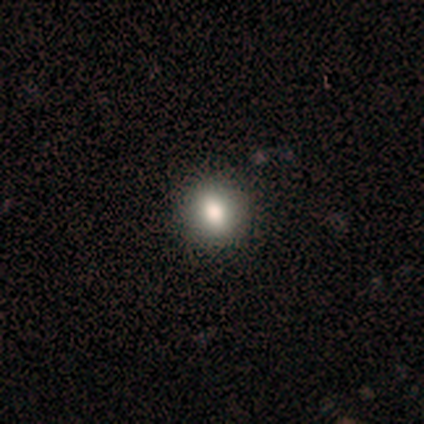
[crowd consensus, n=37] Smooth or featured? 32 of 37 (86%) said smooth. How rounded? 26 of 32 (81%) said round. Merging? 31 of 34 (91%) said none.